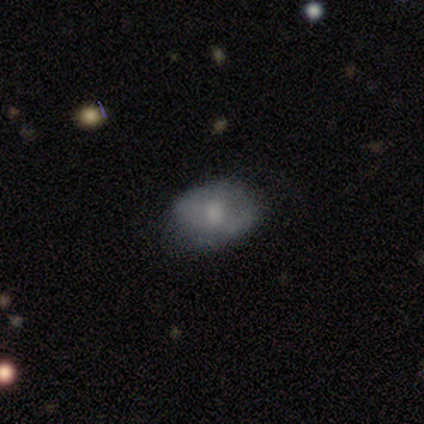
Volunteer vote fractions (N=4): Morphology: type=smooth (50%, tied with featured or disk); roundness=round (50%, tied with in between); merging=none (50%).